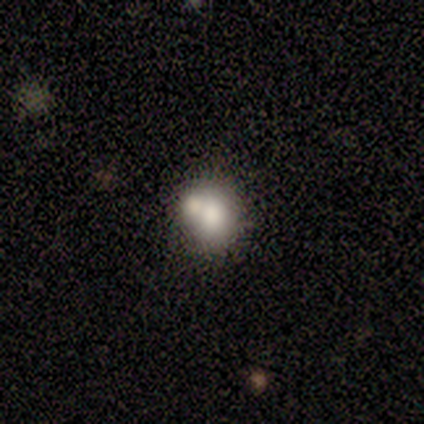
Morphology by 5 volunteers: smooth_or_featured: smooth (p=0.60) [alt: star or artifact p=0.40]
how_rounded: in between (p=0.67) [alt: round p=0.33]
merging: none (p=0.67) [alt: major disturbance p=0.33]